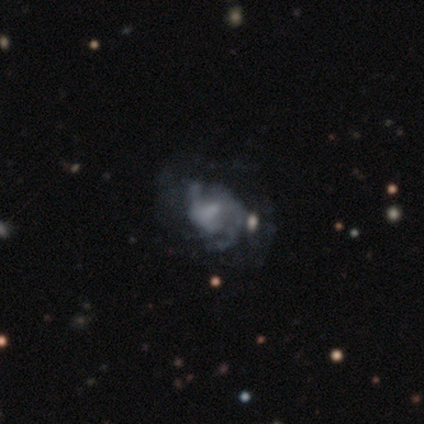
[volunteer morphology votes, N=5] smooth_or_featured: featured or disk (p=0.80) [alt: smooth p=0.20]
disk_edge_on: no (p=1.00)
bar: weak (p=0.50) [tied with: no p=0.50]
has_spiral_arms: yes (p=0.75) [alt: no p=0.25]
spiral_winding: medium (p=1.00)
spiral_arm_count: 2 (p=0.67) [alt: can't tell p=0.33]
bulge_size: small (p=0.50) [alt: moderate p=0.25]
merging: none (p=0.40) [alt: minor disturbance p=0.20]